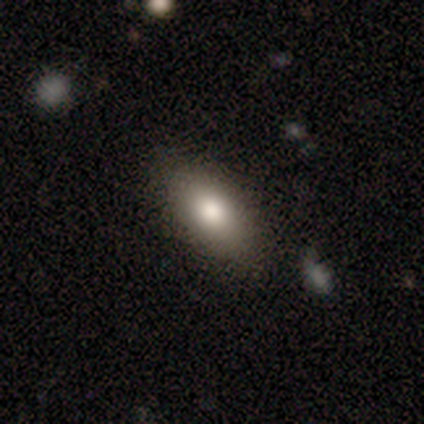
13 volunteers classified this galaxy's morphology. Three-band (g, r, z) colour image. It shows a smooth galaxy with no disk features (69%) that is in between round and cigar-shaped (78%). Merging: none (69%).